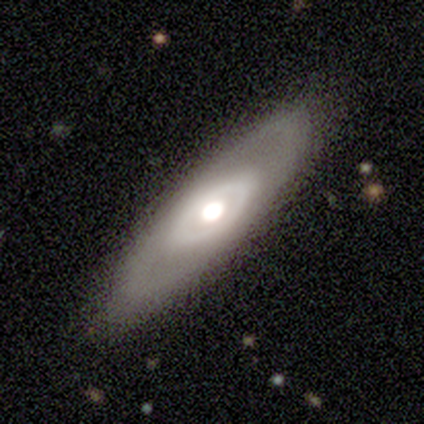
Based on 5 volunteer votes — Morphology: type=featured or disk (80%); edge-on=no (100%); bar=no (100%); spiral arms=no (100%); bulge=moderate (75%); merging=none (80%).